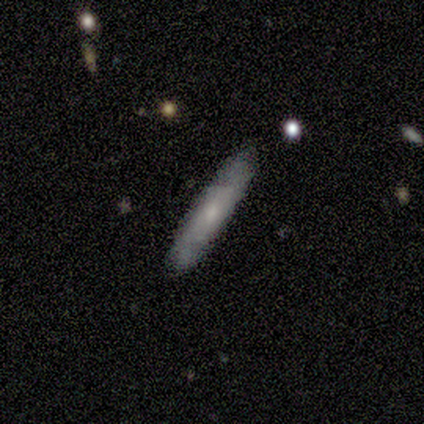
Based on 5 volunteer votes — featured or disk 60%, smooth 40%, star or artifact 0%. Down the decision tree: edge-on disk — yes (67%); edge-on bulge — boxy (50%, tied with none); merging — none (80%).